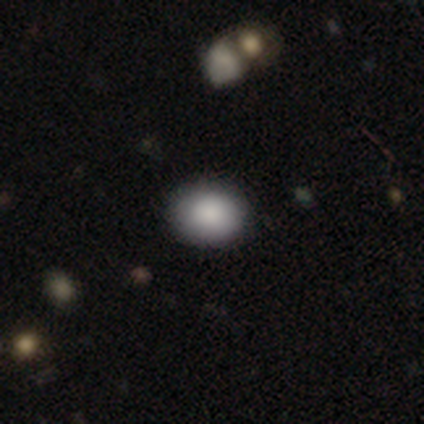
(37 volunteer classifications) A smooth galaxy with no disk features (84%) that is round (68%). Merging: none (91%).